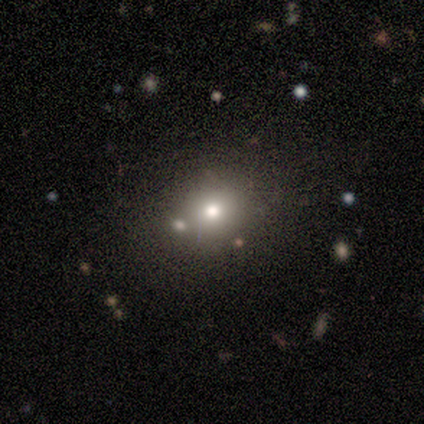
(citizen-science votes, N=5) smooth_or_featured: smooth (p=0.80) [alt: star or artifact p=0.20]
how_rounded: round (p=0.75) [alt: in between p=0.25]
merging: none (p=0.75) [alt: merger p=0.25]